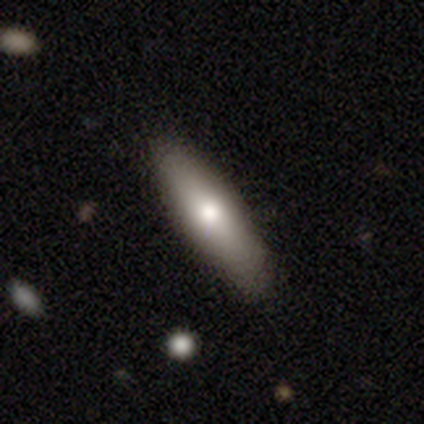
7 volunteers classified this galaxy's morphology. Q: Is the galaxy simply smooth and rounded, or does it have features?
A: smooth — 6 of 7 (86%).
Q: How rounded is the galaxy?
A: cigar-shaped — 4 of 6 (67%).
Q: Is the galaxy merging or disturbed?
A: none — 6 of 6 (100%).